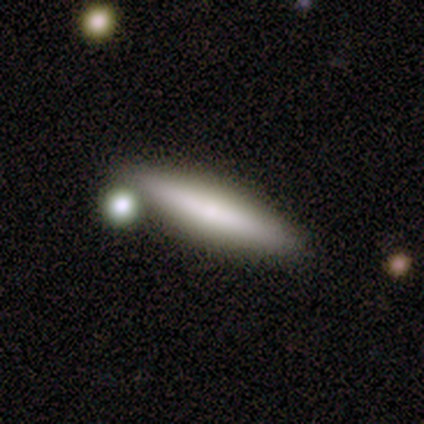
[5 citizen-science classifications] Smooth or featured? smooth (100%)
How rounded? cigar-shaped (80%)
Merging? none (100%)